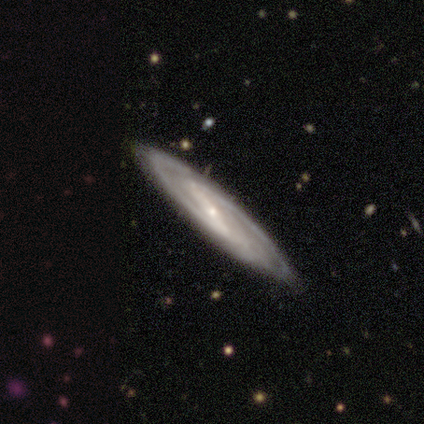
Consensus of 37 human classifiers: smooth-or-featured: featured or disk: 92% | smooth: 5% | star or artifact: 3%
  disk-edge-on: no: 82% | yes: 18%
    bar: strong: 68% | weak: 21% | no: 11%
    has-spiral-arms: yes: 96% | no: 4%
      spiral-winding: medium: 70% | tight: 26% | loose: 4%
      spiral-arm-count: 2: 93% | 3: 4% | can't tell: 4% | 1: 0% | 4: 0% | more than 4: 0%
    bulge-size: small: 82% | moderate: 11% | large: 4% | none: 4% | dominant: 0%
  merging: none: 86% | minor disturbance: 14% | major disturbance: 0% | merger: 0%